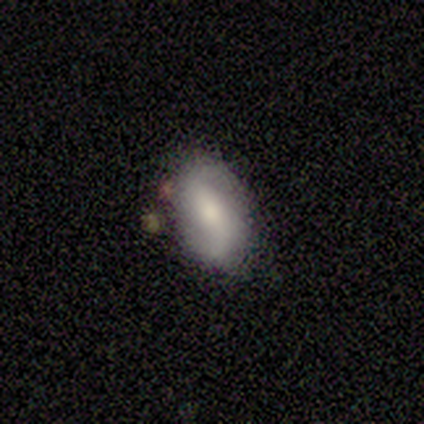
A featured or disk galaxy (55%) with a strong bar (33%, tied with weak and no), 2 (83%) medium (50%, tied with loose) spiral arms (100%) and a moderate central bulge (50%). Merging: none (82%).